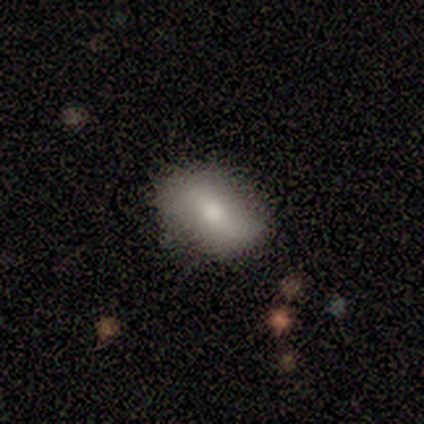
A smooth galaxy with no disk features (75%) that is in between round and cigar-shaped (67%). Merging: none (75%).